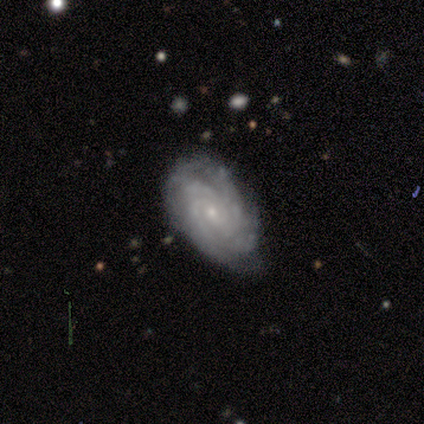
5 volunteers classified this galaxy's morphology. Overall: featured or disk (100%). Edge-on disk: no (100%). Bar: no (60%; weak 40%). Spiral arms: yes (100%). Spiral arm count: 3 (40%, tied with 4). Spiral winding: tight (60%; medium 40%). Bulge size: small (100%). Merging: none (60%; minor disturbance 40%).